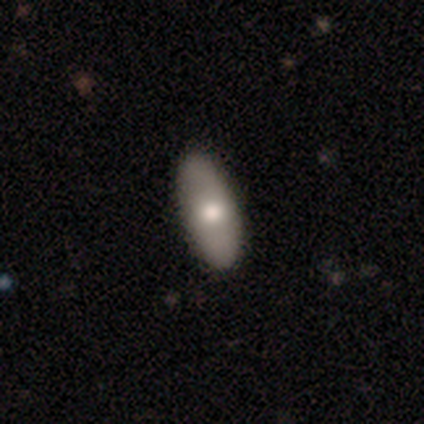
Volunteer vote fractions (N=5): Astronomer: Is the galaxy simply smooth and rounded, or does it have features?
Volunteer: smooth — 100%.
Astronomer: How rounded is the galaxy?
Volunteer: in between — 100%.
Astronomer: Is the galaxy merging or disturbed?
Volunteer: none — 80%.